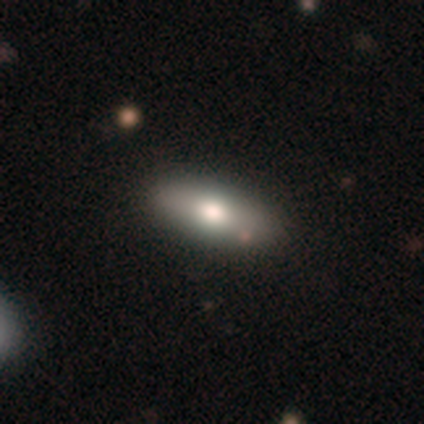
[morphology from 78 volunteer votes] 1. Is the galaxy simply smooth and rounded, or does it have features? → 68% smooth, 27% featured or disk, 5% star or artifact.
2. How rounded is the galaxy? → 79% in between, 21% cigar-shaped, 0% round.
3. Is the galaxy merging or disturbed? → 39% none, 4% minor disturbance, 4% major disturbance, 3% merger.